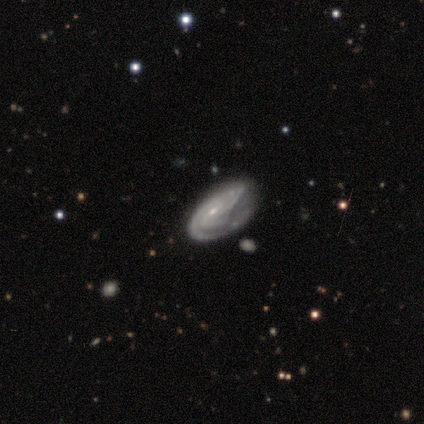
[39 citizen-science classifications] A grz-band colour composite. It shows a featured or disk galaxy (85%) with no bar (56%), 2 (38%) tight (69%) spiral arms (100%) and a small central bulge (84%). Merging: none (54%).